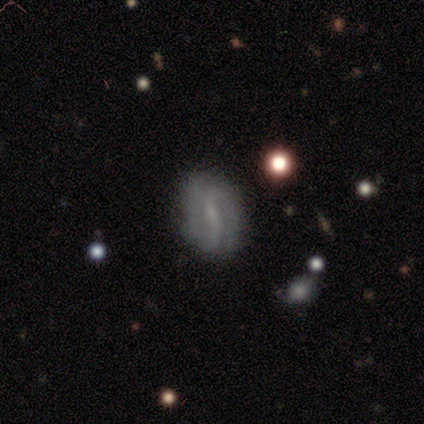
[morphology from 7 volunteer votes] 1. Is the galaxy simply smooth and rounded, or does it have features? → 57% featured or disk, 43% smooth, 0% star or artifact.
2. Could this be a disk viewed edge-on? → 100% no, 0% yes.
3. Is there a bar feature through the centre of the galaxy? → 75% weak, 25% no, 0% strong.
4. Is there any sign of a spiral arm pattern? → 100% yes, 0% no.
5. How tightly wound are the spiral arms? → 50% tight (tied), 50% loose (tied), 0% medium.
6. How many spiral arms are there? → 50% can't tell, 25% 2, 25% 4, 0% 1, 0% 3, 0% more than 4.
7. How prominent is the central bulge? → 75% small, 25% none, 0% dominant, 0% large, 0% moderate.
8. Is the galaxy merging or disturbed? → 100% none, 0% minor disturbance, 0% major disturbance, 0% merger.